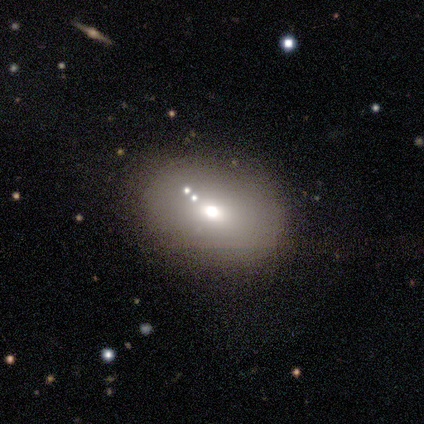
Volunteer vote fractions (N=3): Smooth or featured: smooth — 67% (star or artifact — 33%)
How rounded: round — 100%
Merging: none — 100%